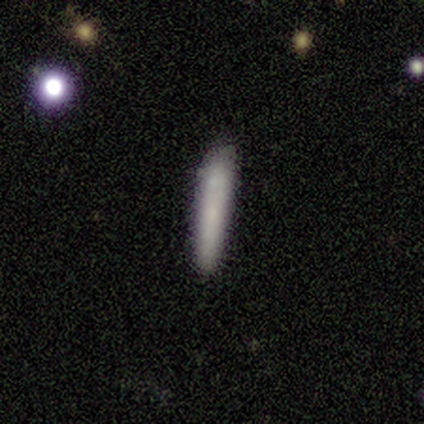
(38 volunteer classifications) This is likely a smooth galaxy (76%). How rounded: clearly cigar-shaped (97%). Merging: clearly none (89%).